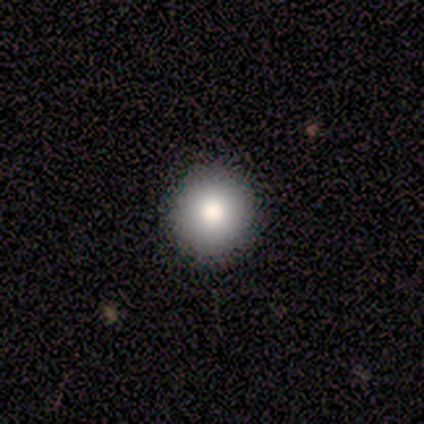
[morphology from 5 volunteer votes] Smooth or featured? smooth (80%)
How rounded? round (75%)
Merging? none (80%)